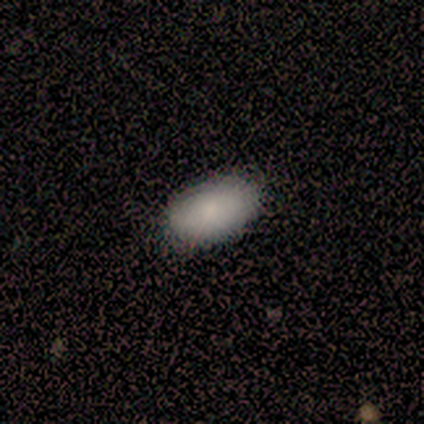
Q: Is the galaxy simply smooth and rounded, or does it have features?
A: smooth — 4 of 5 (80%).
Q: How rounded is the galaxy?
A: in between — 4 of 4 (100%).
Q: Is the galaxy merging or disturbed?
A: none — 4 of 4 (100%).